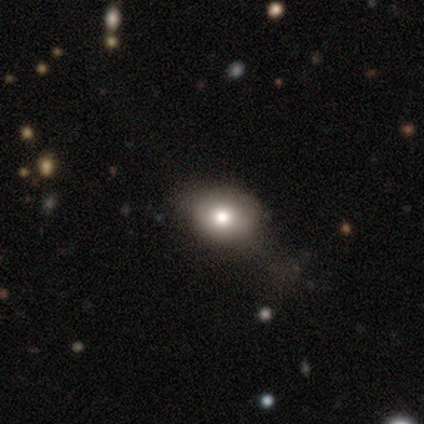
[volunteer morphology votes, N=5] This is clearly a smooth galaxy (100%). How rounded: likely in between (60%). Merging: clearly none (80%).